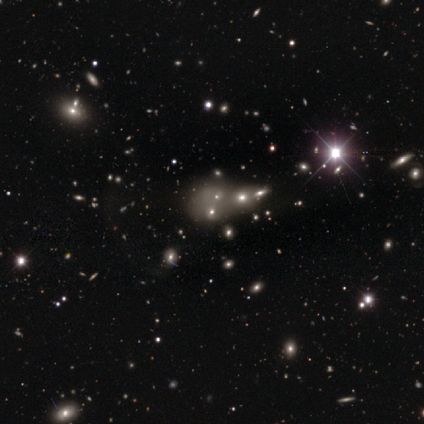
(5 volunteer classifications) smooth_or_featured: star or artifact (p=1.00)